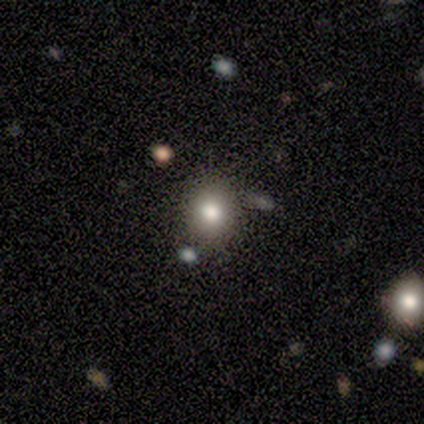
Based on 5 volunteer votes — A smooth galaxy with no disk features (100%) that is round (80%). Merging: none (60%).